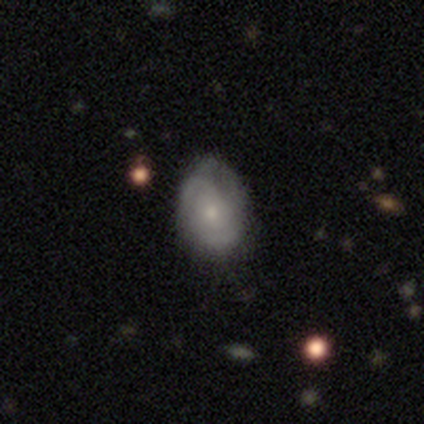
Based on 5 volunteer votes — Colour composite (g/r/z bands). It shows a featured or disk galaxy (80%) with no bar (100%), 1 (25%, tied with 2, 3 and can't tell) tight (50%) spiral arms (100%) and a small central bulge (50%). Merging: minor disturbance (60%).